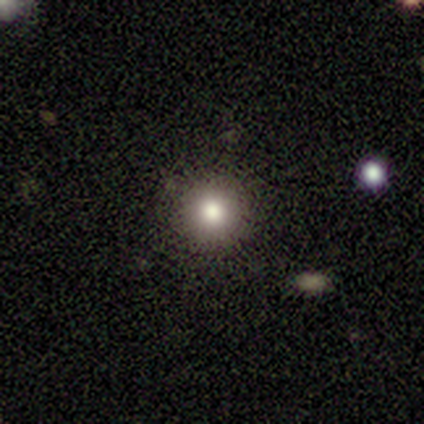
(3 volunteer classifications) Volunteers were most divided on "smooth or featured": smooth: 67%, featured or disk: 33%, star or artifact: 0%. More confident: how rounded — round (100%); merging — none (100%).